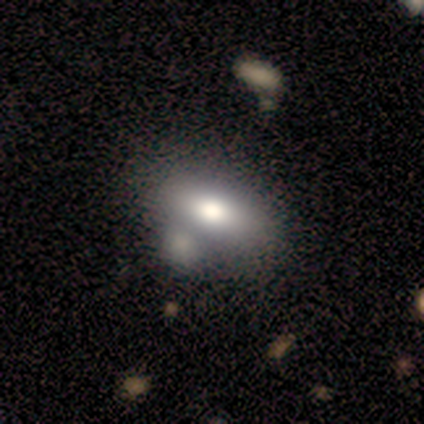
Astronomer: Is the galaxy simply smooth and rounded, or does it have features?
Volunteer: smooth — 60% (runner-up: featured or disk, 40%).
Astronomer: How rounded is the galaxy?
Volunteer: in between — 100%.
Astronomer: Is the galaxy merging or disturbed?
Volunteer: minor disturbance — 40%, tied with merger at 40%.